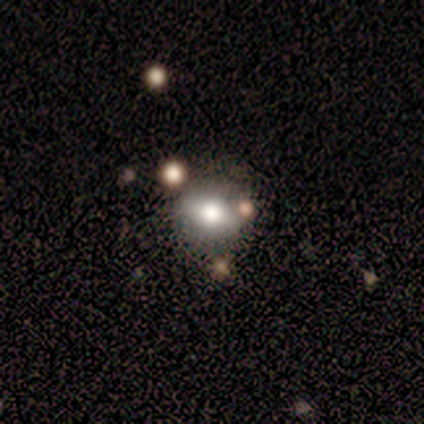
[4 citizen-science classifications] A smooth galaxy with no disk features (75%) that is round (67%).

Vote fractions:
- Smooth or featured? smooth: 75% / featured or disk: 25% / star or artifact: 0%
- How rounded? round: 67% / in between: 33% / cigar-shaped: 0%
- Merging? none: 100% / minor disturbance: 0% / major disturbance: 0% / merger: 0%